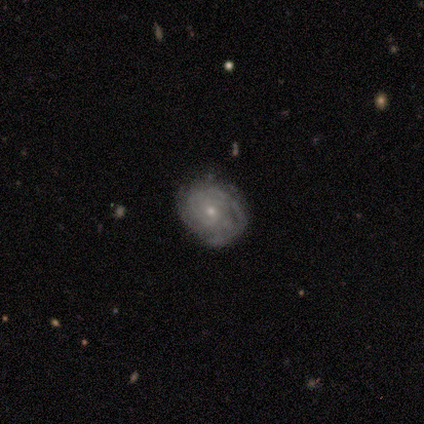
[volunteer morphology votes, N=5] Volunteers were most divided on "merging": none: 60%, minor disturbance: 40%, major disturbance: 0%, merger: 0%. More confident: edge-on disk — no (100%); spiral arms — yes (100%); spiral winding — tight (100%); smooth or featured — featured or disk (80%); bar — no (75%); bulge size — small (75%); spiral arm count — can't tell (50%).